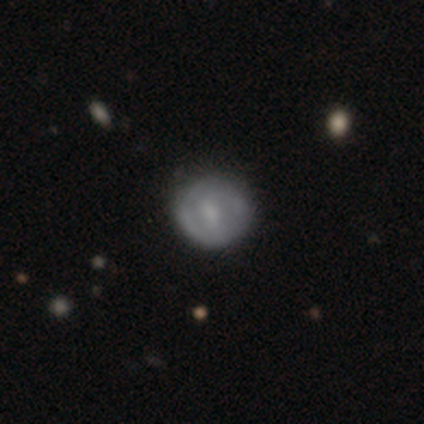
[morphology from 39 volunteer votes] A featured or disk galaxy (49%) with a weak bar (53%), no spiral arms (53%) and a moderate central bulge (42%).

Vote fractions:
- Smooth or featured? featured or disk: 49% / smooth: 44% / star or artifact: 8%
- Edge-on disk? no: 100% / yes: 0%
- Bar? weak: 53% / no: 32% / strong: 16%
- Spiral arms? no: 53% / yes: 47%
- Bulge size? moderate: 42% / small: 37% / dominant: 11% / none: 11% / large: 0%
- Merging? none: 83% / minor disturbance: 11% / major disturbance: 3% / merger: 3%